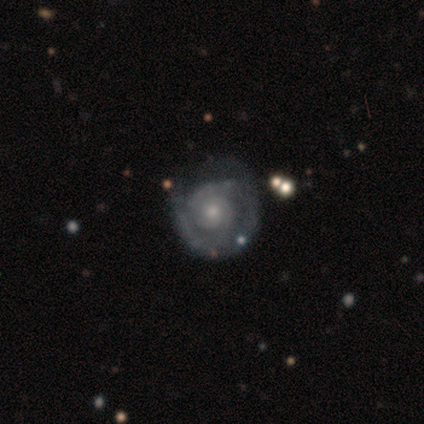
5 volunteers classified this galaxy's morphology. smooth_or_featured: featured or disk (p=1.00)
disk_edge_on: no (p=0.80) [alt: yes p=0.20]
bar: no (p=0.75) [alt: weak p=0.25]
has_spiral_arms: yes (p=1.00)
spiral_winding: tight (p=0.50) [alt: medium p=0.25]
spiral_arm_count: 3 (p=0.50) [alt: 1 p=0.25]
bulge_size: small (p=1.00)
merging: none (p=0.60) [alt: major disturbance p=0.20]